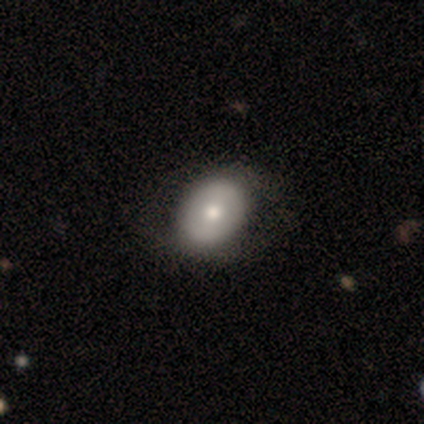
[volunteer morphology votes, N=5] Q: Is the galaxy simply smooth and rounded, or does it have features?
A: smooth — 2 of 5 (40%, tied with featured or disk).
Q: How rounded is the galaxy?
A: in between — 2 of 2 (100%).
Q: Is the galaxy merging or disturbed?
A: none — 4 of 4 (100%).